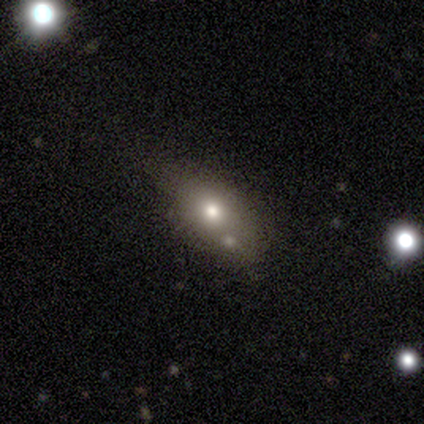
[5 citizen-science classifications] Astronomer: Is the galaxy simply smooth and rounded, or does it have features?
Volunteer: smooth — 60% (runner-up: star or artifact, 40%).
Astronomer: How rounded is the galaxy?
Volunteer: in between — 67%.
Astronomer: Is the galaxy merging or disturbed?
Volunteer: none — 67%.